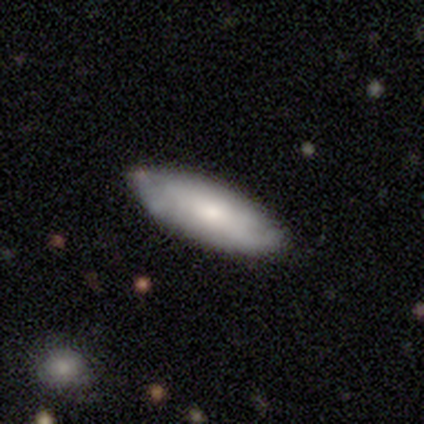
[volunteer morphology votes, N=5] Volunteers were most divided on "spiral arms" (2-way tie): yes: 50%, no: 50%; "bulge size" (2-way tie): moderate: 50%, small: 50%, dominant: 0%, large: 0%, none: 0%. More confident: bar — no (100%); spiral winding — loose (100%); spiral arm count — 1 (100%); merging — none (80%); edge-on disk — no (67%); smooth or featured — featured or disk (60%).